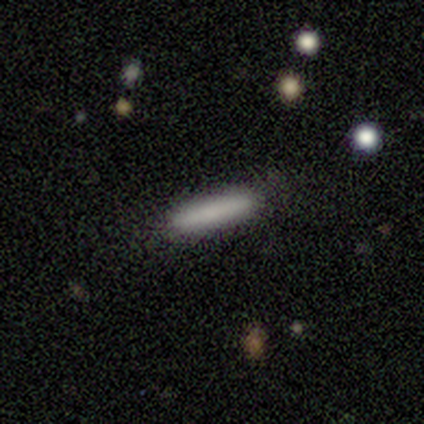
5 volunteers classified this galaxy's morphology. smooth_or_featured: smooth (p=1.00)
how_rounded: cigar-shaped (p=0.80) [alt: in between p=0.20]
merging: none (p=0.80) [alt: minor disturbance p=0.20]